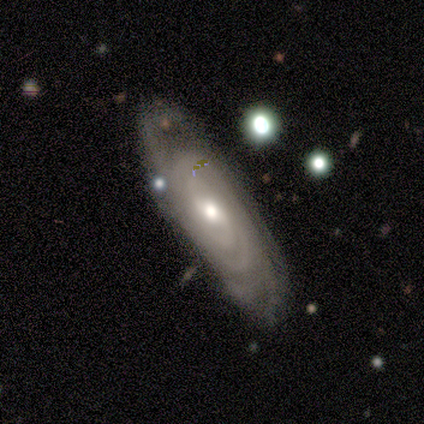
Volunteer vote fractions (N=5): featured or disk 80%, star or artifact 20%, smooth 0%. Down the decision tree: edge-on disk — no (100%); bar — weak (75%); spiral arms — yes (100%); spiral arm count — can't tell (75%); spiral winding — tight (100%); bulge size — small (50%); merging — none (75%).